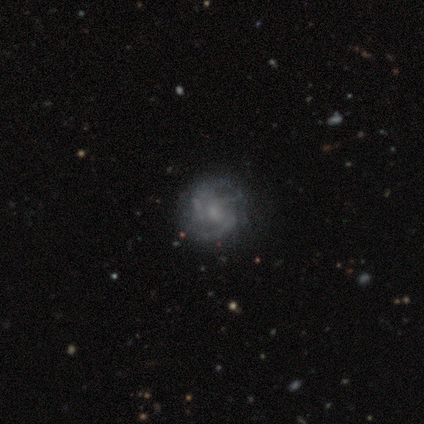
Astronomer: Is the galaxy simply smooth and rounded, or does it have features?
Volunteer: featured or disk — 100%.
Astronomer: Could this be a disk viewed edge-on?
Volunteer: no — 100%.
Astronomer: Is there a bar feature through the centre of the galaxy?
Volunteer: no — 75%.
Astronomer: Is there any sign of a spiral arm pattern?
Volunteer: yes — 100%.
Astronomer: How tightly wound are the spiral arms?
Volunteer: medium — 75%.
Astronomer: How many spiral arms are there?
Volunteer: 3 — 50%.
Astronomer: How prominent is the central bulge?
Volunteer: moderate — 50%.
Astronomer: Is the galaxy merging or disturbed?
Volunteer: none — 75%.